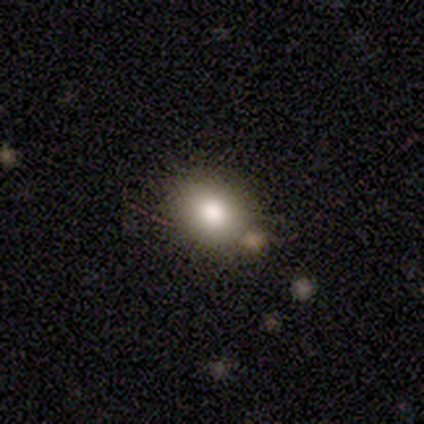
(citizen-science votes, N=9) Morphology: type=smooth (100%); roundness=in between (78%); merging=none (89%).